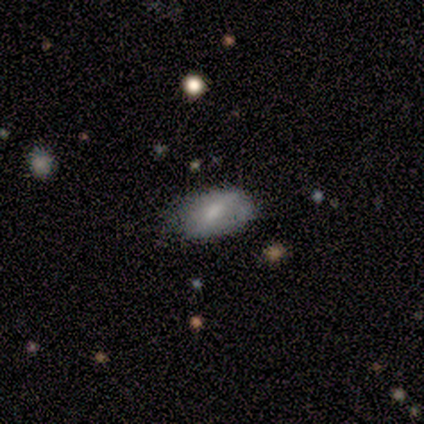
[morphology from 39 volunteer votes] This appears to be a smooth galaxy with no disk features (72%) that is in between round and cigar-shaped (89%). Merging: none (65%).